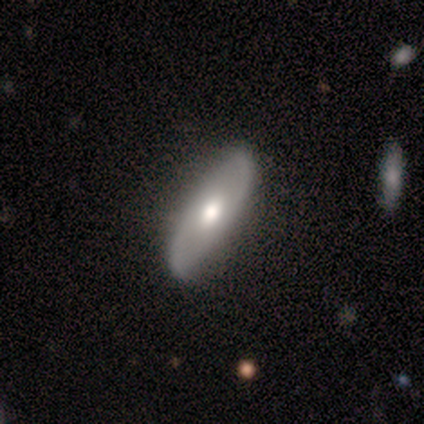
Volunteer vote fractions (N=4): smooth-or-featured: smooth: 50% (tied) | featured or disk: 50% (tied) | star or artifact: 0%
  how-rounded: in between: 100% | round: 0% | cigar-shaped: 0%
  merging: none: 100% | minor disturbance: 0% | major disturbance: 0% | merger: 0%